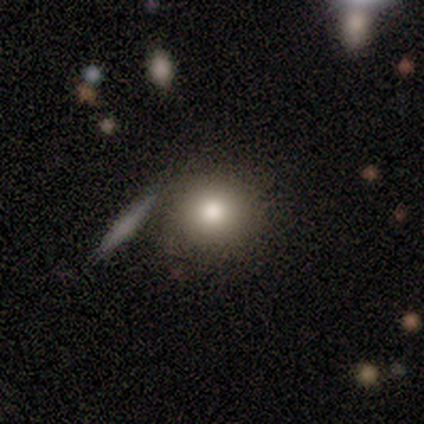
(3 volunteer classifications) Smooth or featured? 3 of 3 (100%) said smooth. How rounded? 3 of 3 (100%) said round. Merging? 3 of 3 (100%) said none.